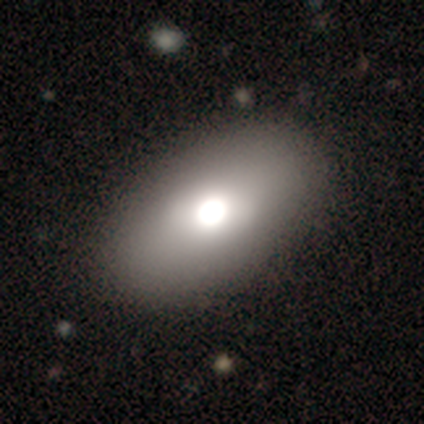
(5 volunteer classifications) Smooth or featured? smooth (80%)
How rounded? in between (75%)
Merging? none (100%)